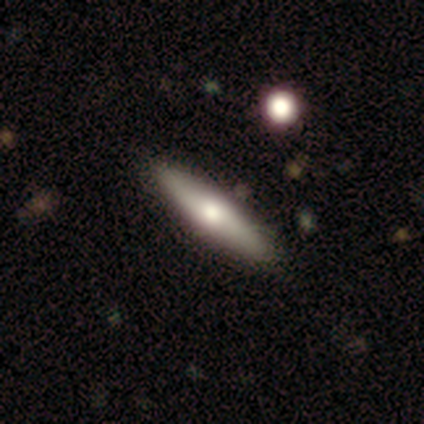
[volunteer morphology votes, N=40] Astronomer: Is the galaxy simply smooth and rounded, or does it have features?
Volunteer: smooth — 65%.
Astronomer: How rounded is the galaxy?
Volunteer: cigar-shaped — 77%.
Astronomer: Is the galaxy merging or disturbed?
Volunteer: none — 92%.